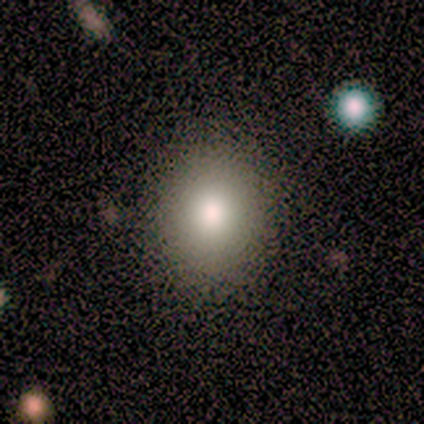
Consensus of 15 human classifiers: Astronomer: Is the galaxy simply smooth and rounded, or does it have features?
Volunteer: smooth — 73%.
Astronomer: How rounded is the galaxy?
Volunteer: round — 91%.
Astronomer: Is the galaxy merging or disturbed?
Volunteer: none — 85%.